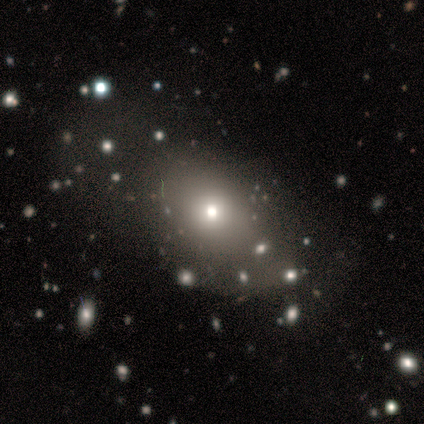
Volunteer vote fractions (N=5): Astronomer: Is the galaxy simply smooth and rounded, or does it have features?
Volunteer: smooth — 60%.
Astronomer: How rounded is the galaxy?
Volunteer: round — 67%.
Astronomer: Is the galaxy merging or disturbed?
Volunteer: none — 100%.